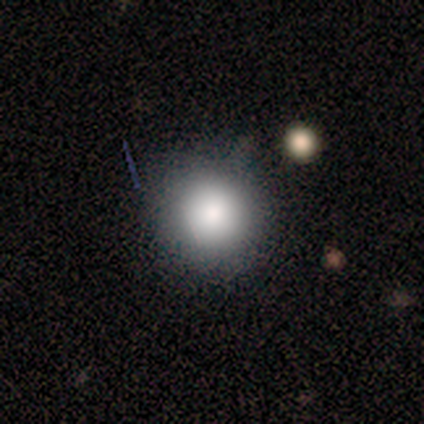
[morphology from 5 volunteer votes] Overall: smooth (80%). How rounded: round (100%). Merging: none (80%).